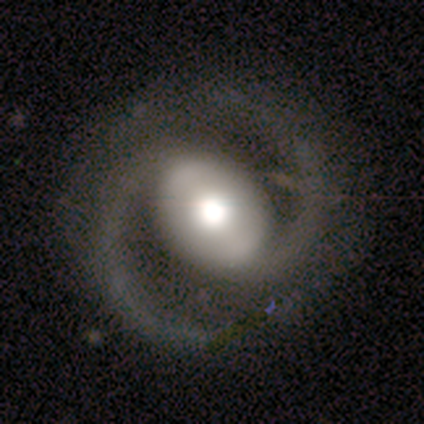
Volunteers were most divided on "merging" (2-way tie): none: 50%, minor disturbance: 50%, major disturbance: 0%, merger: 0%. More confident: edge-on disk — no (100%); spiral arms — yes (100%); spiral winding — medium (100%); spiral arm count — 2 (100%); smooth or featured — featured or disk (80%); bar — no (50%); bulge size — moderate (50%).